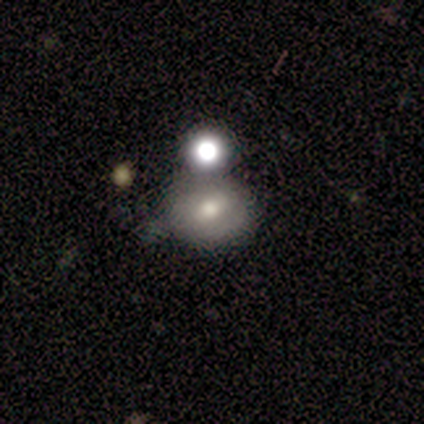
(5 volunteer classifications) This is likely a smooth galaxy (60%). How rounded: likely round (67%). Merging: likely none (75%).